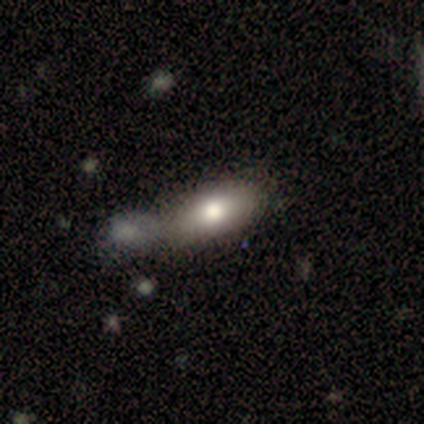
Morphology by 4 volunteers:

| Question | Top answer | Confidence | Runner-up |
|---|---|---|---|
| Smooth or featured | smooth | 50% | tied: featured or disk (50%) |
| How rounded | in between | 100% | — |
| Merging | merger | 100% | — |